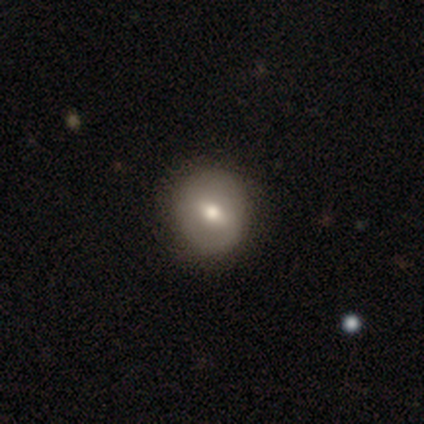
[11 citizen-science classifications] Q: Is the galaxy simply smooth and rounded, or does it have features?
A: smooth — 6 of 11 (55%).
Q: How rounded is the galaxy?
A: round — 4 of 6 (67%).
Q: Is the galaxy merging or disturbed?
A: none — 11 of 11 (100%).